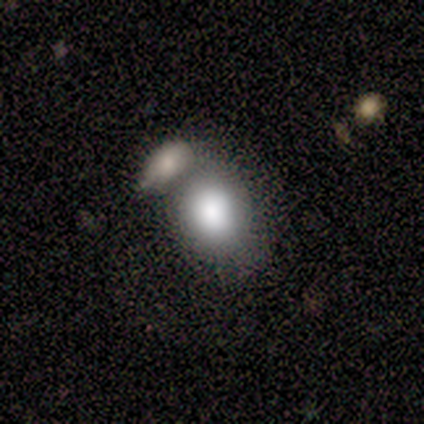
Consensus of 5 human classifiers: Smooth or featured? 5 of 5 (100%) said smooth. How rounded? 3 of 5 (60%) said round. Merging? 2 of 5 (40%, tied with merger) said none.